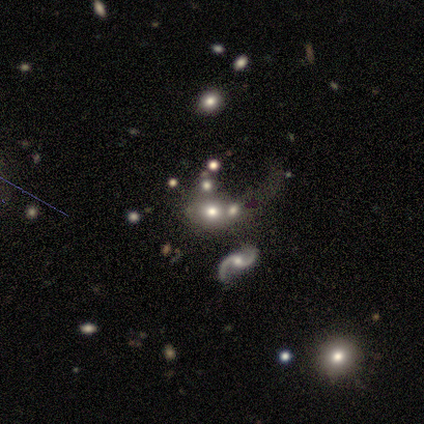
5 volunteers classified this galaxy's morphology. smooth-or-featured: smooth: 60% | featured or disk: 20% | star or artifact: 20%
  how-rounded: in between: 67% | round: 33% | cigar-shaped: 0%
  merging: none: 75% | merger: 25% | minor disturbance: 0% | major disturbance: 0%